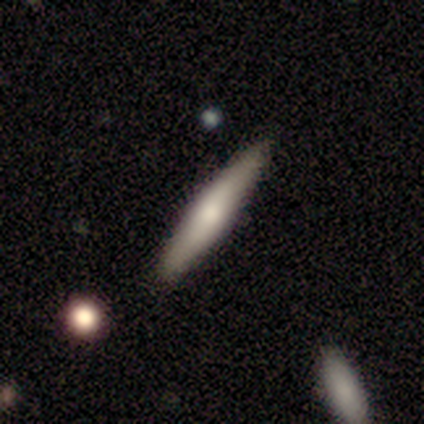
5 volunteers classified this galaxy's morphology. This appears to be a smooth galaxy with no disk features (80%) that is cigar-shaped (75%). Merging: none (100%).